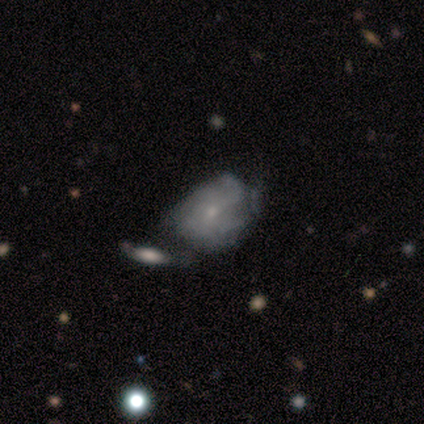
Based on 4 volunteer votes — Smooth or featured?
  - smooth: 50% * (tied)
  - featured or disk: 50% * (tied)
  - star or artifact: 0%
How rounded?
  - in between: 100% *
  - round: 0%
  - cigar-shaped: 0%
Merging?
  - none: 25% * (tied)
  - minor disturbance: 25% * (tied)
  - major disturbance: 25% * (tied)
  - merger: 25% * (tied)